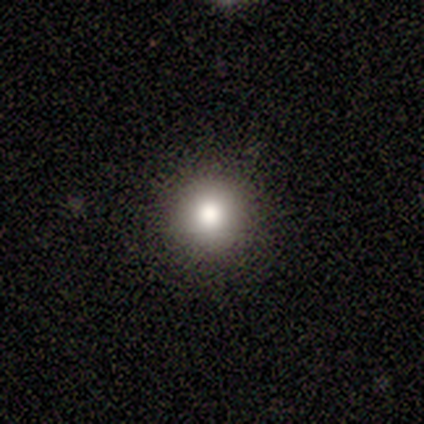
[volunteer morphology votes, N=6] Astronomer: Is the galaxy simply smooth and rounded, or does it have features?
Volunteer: smooth — 83%.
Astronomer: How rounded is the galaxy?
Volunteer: round — 80%.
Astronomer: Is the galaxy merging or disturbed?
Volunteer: none — 83%.